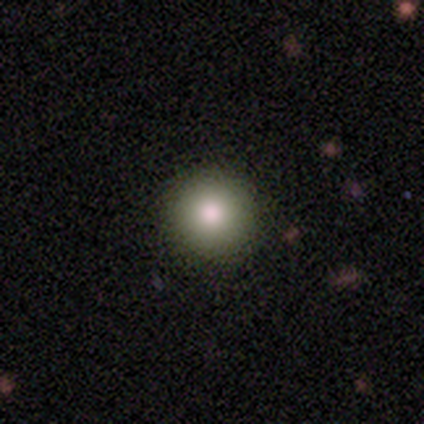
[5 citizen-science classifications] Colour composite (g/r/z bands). It shows a smooth galaxy with no disk features (80%) that is round (100%). Merging: none (100%).